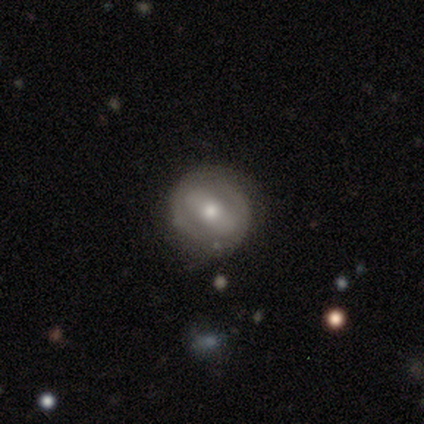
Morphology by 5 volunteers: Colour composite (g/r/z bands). It shows a featured or disk galaxy (80%) with no bar (75%), no spiral arms (100%) and a moderate central bulge (75%). Merging: none (80%).